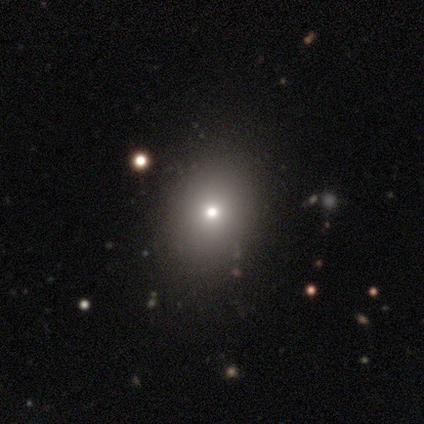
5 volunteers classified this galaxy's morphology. Smooth or featured: smooth — 100%
How rounded: round — 60% (in between — 40%)
Merging: none — 60% (minor disturbance — 20%)